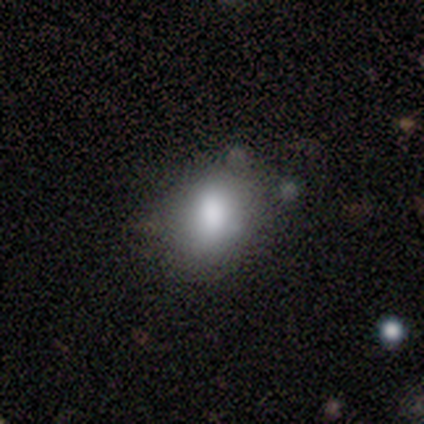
A smooth galaxy with no disk features (100%) that is in between round and cigar-shaped (88%).

Vote fractions:
- Smooth or featured? smooth: 100% / featured or disk: 0% / star or artifact: 0%
- How rounded? in between: 88% / round: 12% / cigar-shaped: 0%
- Merging? none: 50% (tied) / minor disturbance: 50% (tied) / major disturbance: 0% / merger: 0%